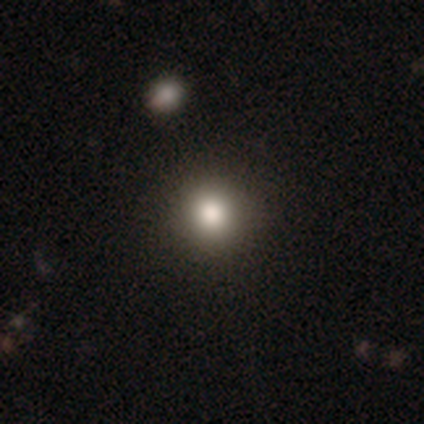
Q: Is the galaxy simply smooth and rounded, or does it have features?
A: smooth — 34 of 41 (83%).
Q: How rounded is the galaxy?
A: round — 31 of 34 (91%).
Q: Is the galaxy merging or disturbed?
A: none — 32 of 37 (86%).